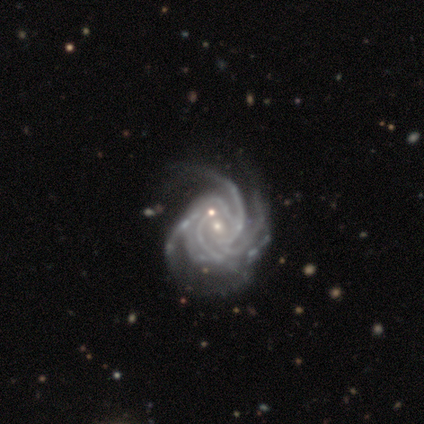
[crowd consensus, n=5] Morphology: type=featured or disk (100%); edge-on=no (100%); bar=no (60%); spiral arms=yes (100%); winding=tight (60%); arm count=3 (40%, tied with can't tell); bulge=small (60%); merging=none (60%).